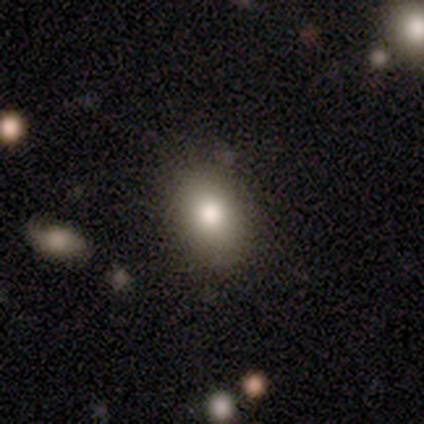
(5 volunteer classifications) Smooth or featured: smooth — 60% (star or artifact — 40%)
How rounded: round — 67% (in between — 33%)
Merging: none — 67% (minor disturbance — 33%)